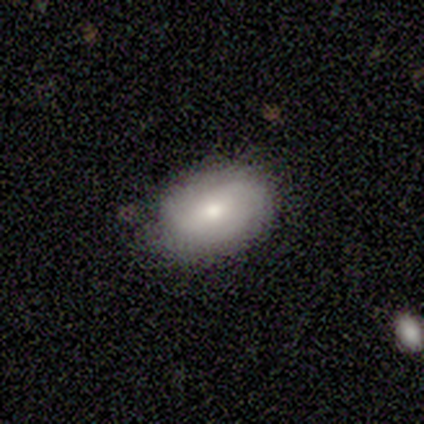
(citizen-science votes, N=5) Q: Smooth or featured?
A: smooth (40%); tied with: featured or disk (40%)
Q: How rounded?
A: in between (100%)
Q: Merging?
A: none (75%); runner-up: minor disturbance (25%)